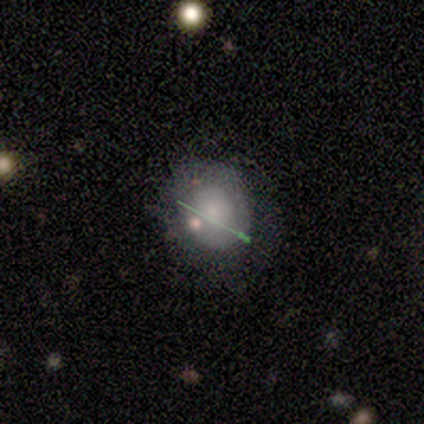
Morphology: type=featured or disk (49%); edge-on=no (79%); bar=no (80%); spiral arms=yes (53%); winding=tight (75%); arm count=1 (50%); bulge=small (60%); merging=none (64%).